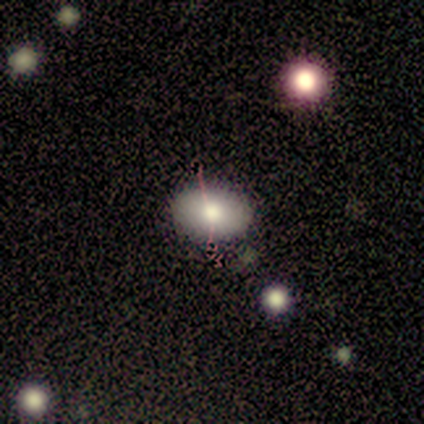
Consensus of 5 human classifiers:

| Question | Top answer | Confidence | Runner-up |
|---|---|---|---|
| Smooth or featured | smooth | 60% | star or artifact (40%) |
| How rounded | in between | 100% | — |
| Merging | none | 100% | — |